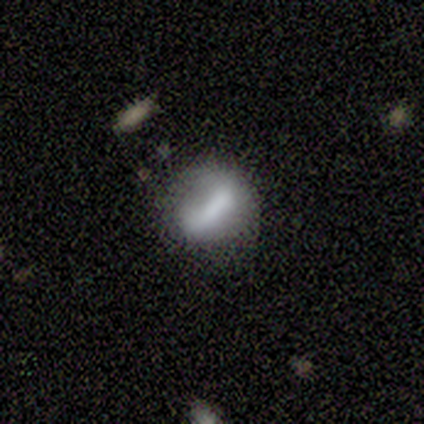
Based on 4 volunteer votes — This appears to be a smooth galaxy with no disk features (100%) that is cigar-shaped (50%). Merging: minor disturbance (50%).